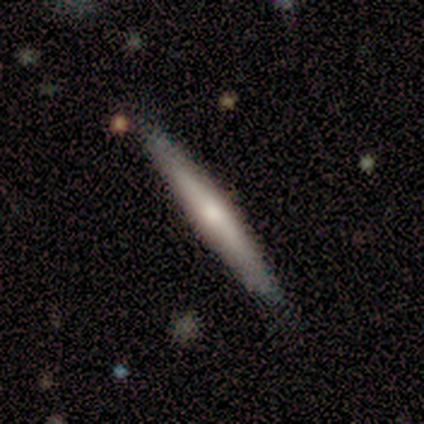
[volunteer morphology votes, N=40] smooth_or_featured: featured or disk (p=0.57) [alt: smooth p=0.42]
disk_edge_on: yes (p=0.96) [alt: no p=0.04]
edge_on_bulge: rounded (p=0.59) [alt: none p=0.41]
merging: none (p=0.88) [alt: merger p=0.07]